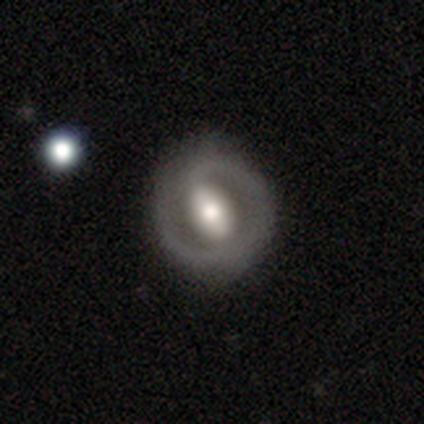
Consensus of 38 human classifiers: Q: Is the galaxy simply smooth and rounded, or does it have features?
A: featured or disk — 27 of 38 (71%).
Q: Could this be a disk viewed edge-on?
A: no — 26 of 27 (96%).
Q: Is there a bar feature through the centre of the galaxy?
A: strong — 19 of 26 (73%).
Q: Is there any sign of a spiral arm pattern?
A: no — 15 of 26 (58%).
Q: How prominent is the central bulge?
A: moderate — 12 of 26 (46%).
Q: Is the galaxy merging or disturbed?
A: none — 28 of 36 (78%).